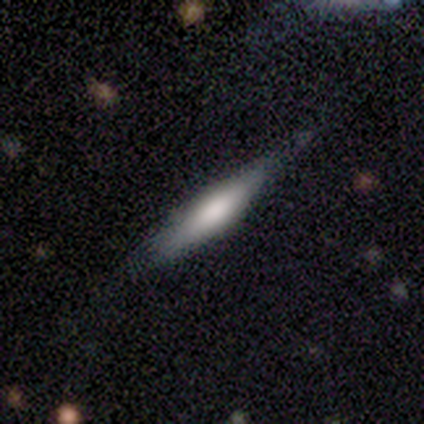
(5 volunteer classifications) Smooth or featured?
  - smooth: 60% *
  - featured or disk: 40%
  - star or artifact: 0%
How rounded?
  - cigar-shaped: 100% *
  - round: 0%
  - in between: 0%
Merging?
  - none: 80% *
  - minor disturbance: 20%
  - major disturbance: 0%
  - merger: 0%